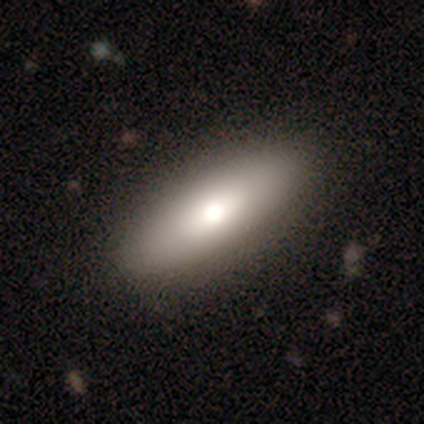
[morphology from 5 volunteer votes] Volunteers were most divided on "how rounded": cigar-shaped: 75%, in between: 25%, round: 0%. More confident: smooth or featured — smooth (80%); merging — none (80%).